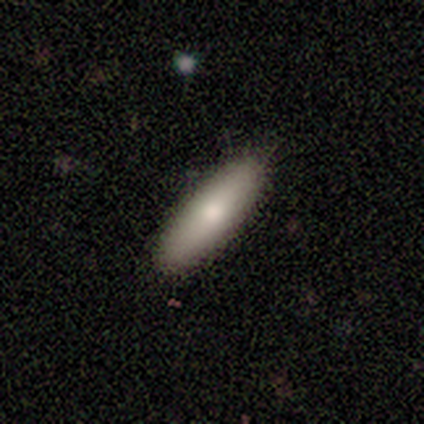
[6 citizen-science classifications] Smooth or featured?
  - smooth: 83% *
  - featured or disk: 17%
  - star or artifact: 0%
How rounded?
  - cigar-shaped: 80% *
  - in between: 20%
  - round: 0%
Merging?
  - none: 83% *
  - minor disturbance: 17%
  - major disturbance: 0%
  - merger: 0%